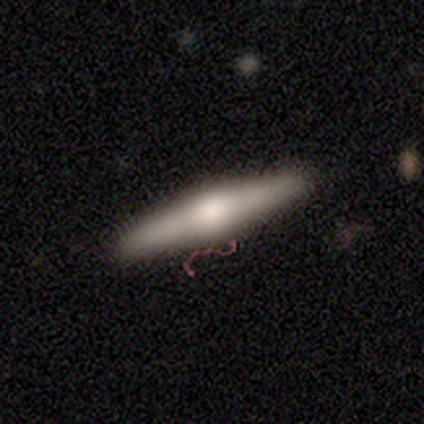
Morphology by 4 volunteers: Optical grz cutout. It shows a featured or disk galaxy (75%) viewed edge-on (100%) with a rounded central bulge (100%). Merging: none (100%).